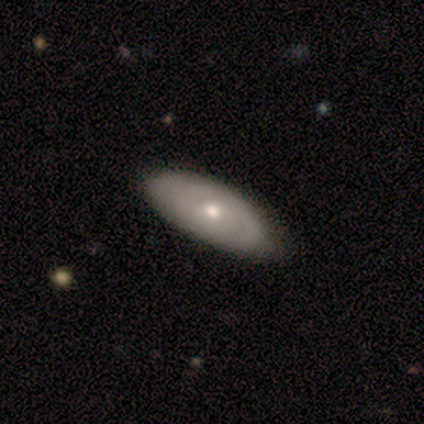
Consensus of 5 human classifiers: featured or disk 80%, smooth 20%, star or artifact 0%. Down the decision tree: edge-on disk — no (100%); bar — no (100%); spiral arms — yes (50%, tied with no); spiral arm count — can't tell (100%); spiral winding — tight (50%, tied with medium); bulge size — moderate (75%); merging — none (60%).